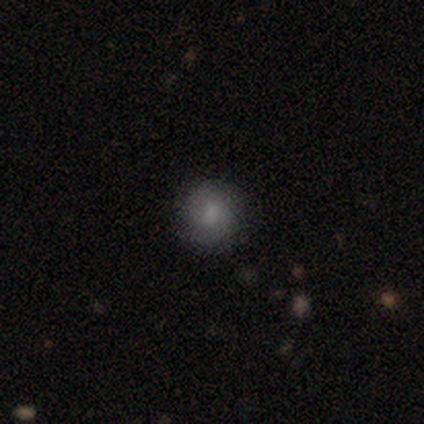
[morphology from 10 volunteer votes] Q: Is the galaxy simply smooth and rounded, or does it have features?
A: smooth — 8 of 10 (80%).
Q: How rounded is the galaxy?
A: round — 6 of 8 (75%).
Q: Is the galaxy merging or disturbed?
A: none — 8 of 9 (89%).